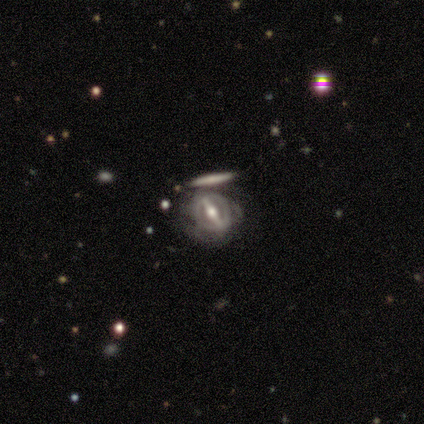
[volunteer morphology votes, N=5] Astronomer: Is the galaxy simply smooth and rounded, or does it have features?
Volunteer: featured or disk — 100%.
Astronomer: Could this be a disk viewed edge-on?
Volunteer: no — 100%.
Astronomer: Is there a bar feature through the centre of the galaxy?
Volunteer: strong — 60% (runner-up: weak, 40%).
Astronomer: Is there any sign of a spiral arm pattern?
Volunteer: no — 60% (runner-up: yes, 40%).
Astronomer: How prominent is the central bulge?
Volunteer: moderate — 100%.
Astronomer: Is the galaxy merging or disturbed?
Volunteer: none — 100%.